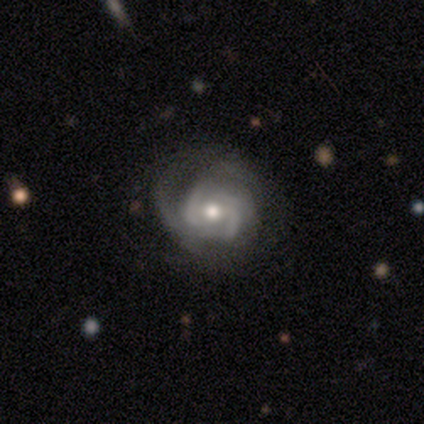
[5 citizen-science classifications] A featured or disk galaxy (100%) with no bar (60%), 2 (60%) medium (60%) spiral arms (100%) and a moderate central bulge (60%). Merging: none (100%).